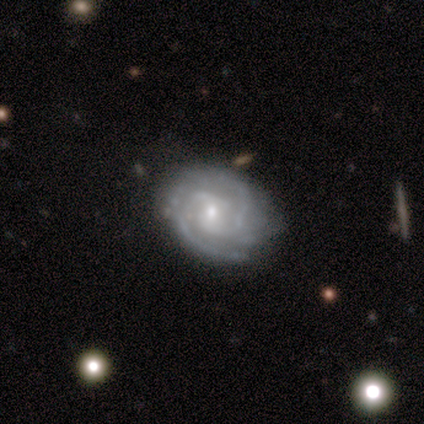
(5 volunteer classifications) Morphology: type=featured or disk (100%); edge-on=no (100%); bar=weak (40%, tied with no); spiral arms=yes (100%); winding=tight (60%); arm count=2 (60%); bulge=moderate (80%); merging=none (60%).